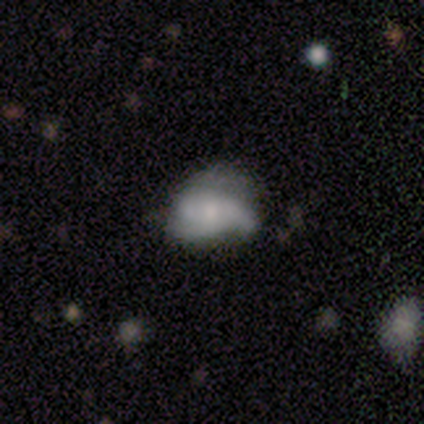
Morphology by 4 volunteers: Q: Smooth or featured?
A: smooth (50%); tied with: featured or disk (50%)
Q: How rounded?
A: in between (100%)
Q: Merging?
A: minor disturbance (75%); runner-up: none (25%)